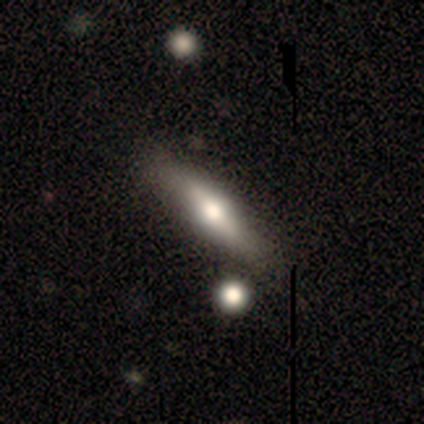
smooth-or-featured: smooth: 100% | featured or disk: 0% | star or artifact: 0%
  how-rounded: cigar-shaped: 60% | in between: 40% | round: 0%
  merging: minor disturbance: 60% | none: 40% | major disturbance: 0% | merger: 0%